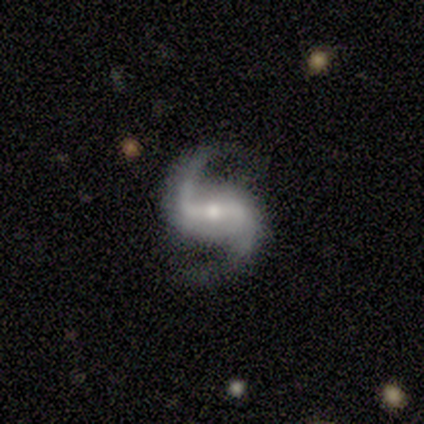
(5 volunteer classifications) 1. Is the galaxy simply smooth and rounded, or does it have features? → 100% featured or disk, 0% smooth, 0% star or artifact.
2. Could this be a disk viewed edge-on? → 100% no, 0% yes.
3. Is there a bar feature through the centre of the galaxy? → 80% strong, 20% weak, 0% no.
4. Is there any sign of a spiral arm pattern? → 100% yes, 0% no.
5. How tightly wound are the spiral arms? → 80% loose, 20% medium, 0% tight.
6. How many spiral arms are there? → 100% 2, 0% 1, 0% 3, 0% 4, 0% more than 4, 0% can't tell.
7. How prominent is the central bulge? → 60% moderate, 40% small, 0% dominant, 0% large, 0% none.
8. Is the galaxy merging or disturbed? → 100% none, 0% minor disturbance, 0% major disturbance, 0% merger.